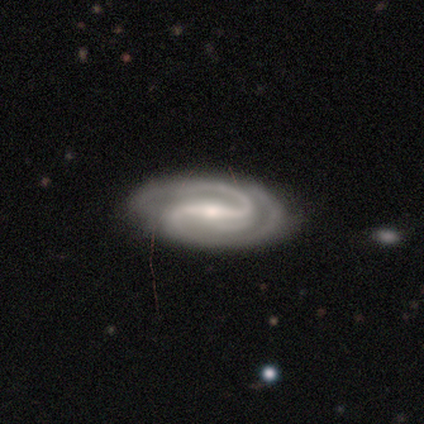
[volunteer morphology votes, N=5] smooth_or_featured: featured or disk (p=1.00)
disk_edge_on: no (p=1.00)
bar: strong (p=0.80) [alt: weak p=0.20]
has_spiral_arms: yes (p=1.00)
spiral_winding: medium (p=0.80) [alt: tight p=0.20]
spiral_arm_count: 2 (p=1.00)
bulge_size: moderate (p=0.60) [alt: small p=0.40]
merging: none (p=0.80) [alt: minor disturbance p=0.20]